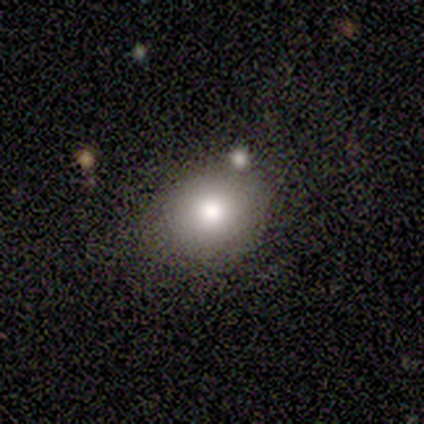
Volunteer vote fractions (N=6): Smooth or featured: smooth — 83% (star or artifact — 17%)
How rounded: in between — 80% (round — 20%)
Merging: none — 100%